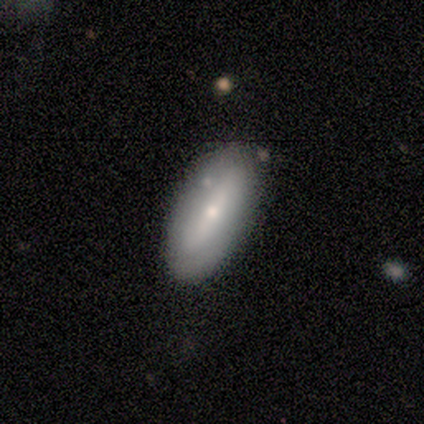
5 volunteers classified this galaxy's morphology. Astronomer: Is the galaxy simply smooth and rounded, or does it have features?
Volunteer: smooth — 80%.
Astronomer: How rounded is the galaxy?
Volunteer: in between — 100%.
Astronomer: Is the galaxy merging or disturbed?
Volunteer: none — 100%.